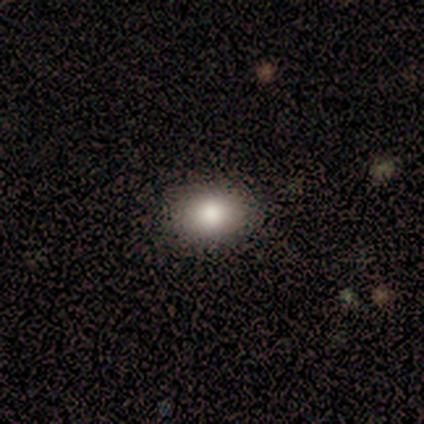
Smooth or featured?
  - smooth: 82% *
  - star or artifact: 15%
  - featured or disk: 3%
How rounded?
  - in between: 62% *
  - round: 38%
  - cigar-shaped: 0%
Merging?
  - none: 91% *
  - minor disturbance: 6%
  - major disturbance: 3%
  - merger: 0%